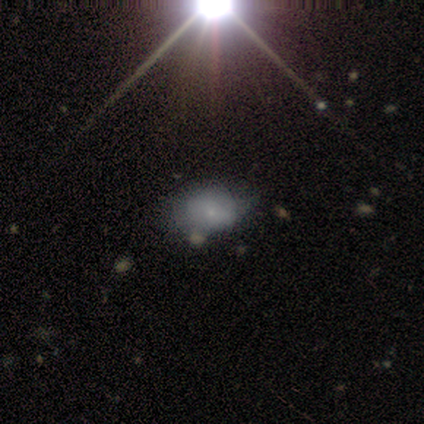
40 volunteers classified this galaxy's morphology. This appears to be a smooth galaxy with no disk features (62%) that is in between round and cigar-shaped (92%). Merging: minor disturbance (43%).